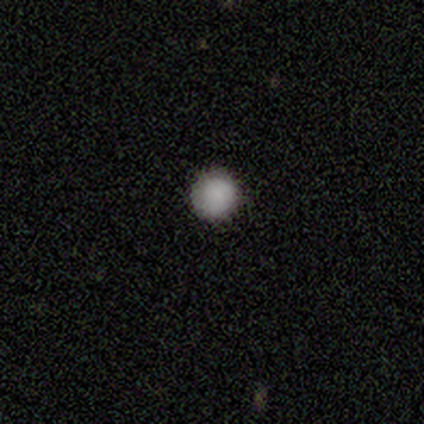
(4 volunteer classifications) smooth-or-featured: smooth: 100% | featured or disk: 0% | star or artifact: 0%
  how-rounded: round: 100% | in between: 0% | cigar-shaped: 0%
  merging: none: 75% | minor disturbance: 25% | major disturbance: 0% | merger: 0%